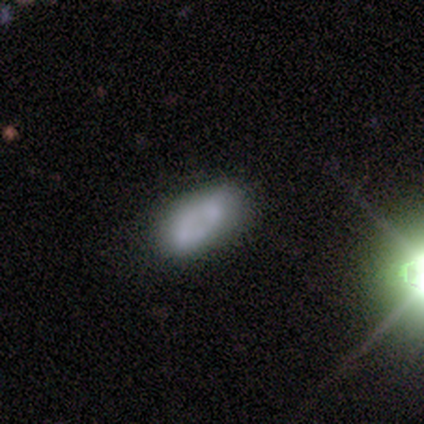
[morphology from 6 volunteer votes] A smooth galaxy with no disk features (83%) that is in between round and cigar-shaped (100%).

Vote fractions:
- Smooth or featured? smooth: 83% / featured or disk: 17% / star or artifact: 0%
- How rounded? in between: 100% / round: 0% / cigar-shaped: 0%
- Merging? none: 83% / merger: 17% / minor disturbance: 0% / major disturbance: 0%